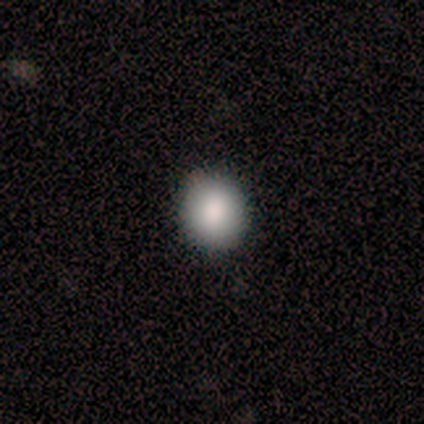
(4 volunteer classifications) A smooth galaxy with no disk features (75%) that is round (67%).

Vote fractions:
- Smooth or featured? smooth: 75% / star or artifact: 25% / featured or disk: 0%
- How rounded? round: 67% / in between: 33% / cigar-shaped: 0%
- Merging? none: 100% / minor disturbance: 0% / major disturbance: 0% / merger: 0%